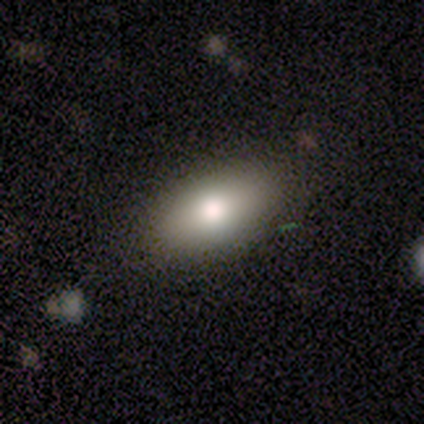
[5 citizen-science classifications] A smooth galaxy with no disk features (60%) that is in between round and cigar-shaped (100%).

Vote fractions:
- Smooth or featured? smooth: 60% / featured or disk: 40% / star or artifact: 0%
- How rounded? in between: 100% / round: 0% / cigar-shaped: 0%
- Merging? none: 60% / minor disturbance: 40% / major disturbance: 0% / merger: 0%